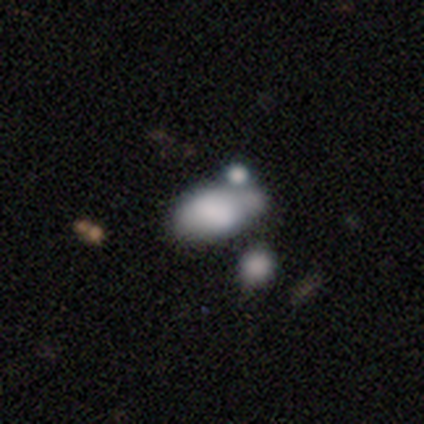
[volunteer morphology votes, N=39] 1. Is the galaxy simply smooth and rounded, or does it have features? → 67% smooth, 21% featured or disk, 13% star or artifact.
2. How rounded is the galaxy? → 88% in between, 12% round, 0% cigar-shaped.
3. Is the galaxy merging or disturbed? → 41% none, 38% merger, 12% minor disturbance, 9% major disturbance.